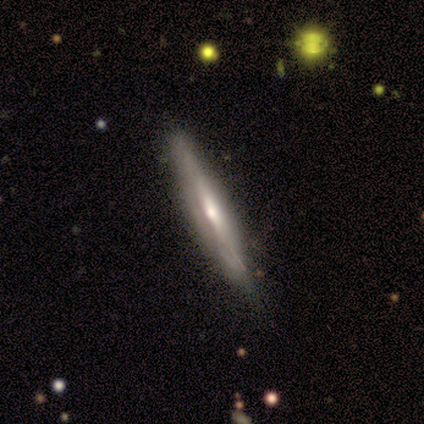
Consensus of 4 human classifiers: smooth 50% (tied), featured or disk 50% (tied), star or artifact 0%. Down the decision tree: how rounded — cigar-shaped (100%); merging — none (75%).